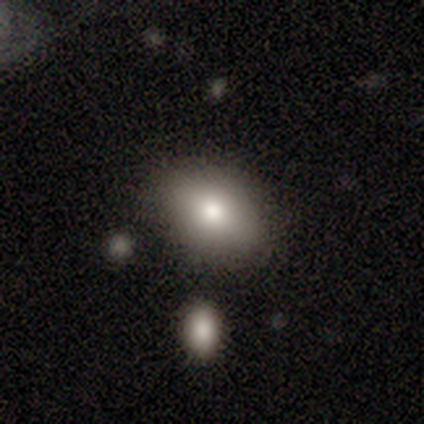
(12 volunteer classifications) A smooth galaxy with no disk features (75%) that is in between round and cigar-shaped (89%).

Vote fractions:
- Smooth or featured? smooth: 75% / featured or disk: 17% / star or artifact: 8%
- How rounded? in between: 89% / round: 11% / cigar-shaped: 0%
- Merging? none: 91% / minor disturbance: 9% / major disturbance: 0% / merger: 0%